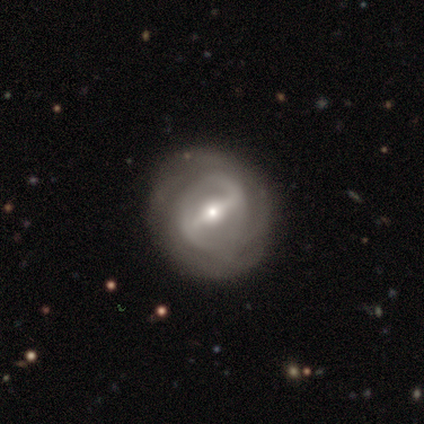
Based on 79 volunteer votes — A featured or disk galaxy (91%) with a strong bar (77%), tight (53%) spiral arms (74%) and a moderate central bulge (54%). Merging: none (37%).